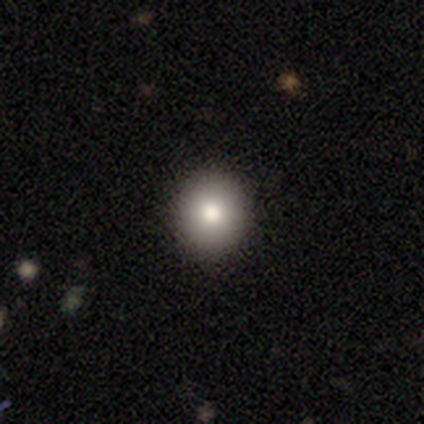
Smooth or featured: smooth — 82% (featured or disk — 15%)
How rounded: round — 78% (in between — 22%)
Merging: none — 61% (minor disturbance — 5%)